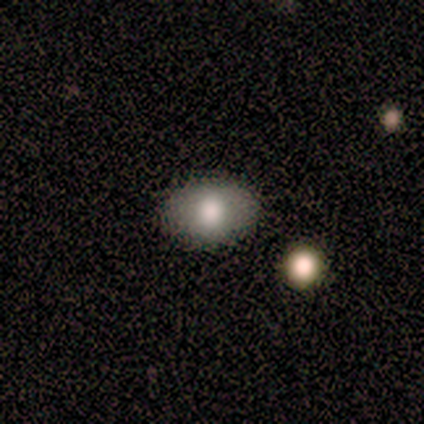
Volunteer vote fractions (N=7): A smooth galaxy with no disk features (86%) that is in between round and cigar-shaped (83%).

Vote fractions:
- Smooth or featured? smooth: 86% / featured or disk: 14% / star or artifact: 0%
- How rounded? in between: 83% / round: 17% / cigar-shaped: 0%
- Merging? none: 100% / minor disturbance: 0% / major disturbance: 0% / merger: 0%